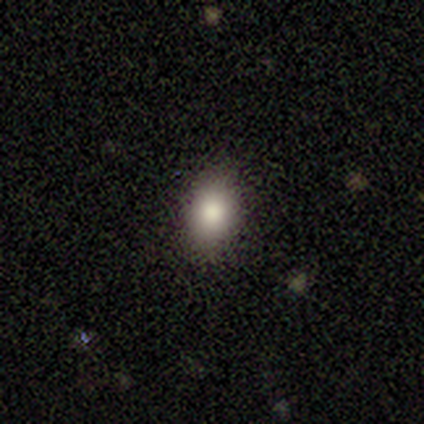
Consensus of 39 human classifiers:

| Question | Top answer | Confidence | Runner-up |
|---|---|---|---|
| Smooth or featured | smooth | 85% | featured or disk (8%) |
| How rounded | in between | 79% | round (18%) |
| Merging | none | 97% | minor disturbance (3%) |